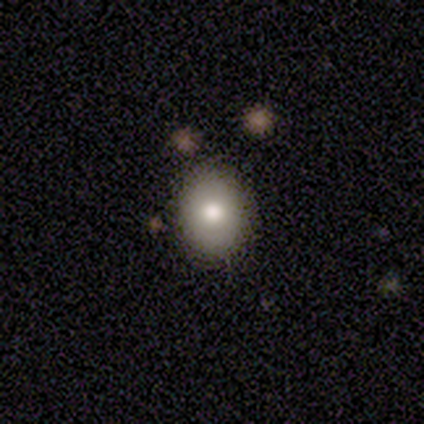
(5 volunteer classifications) Overall: smooth (100%). How rounded: in between (60%; round 40%). Merging: none (80%).